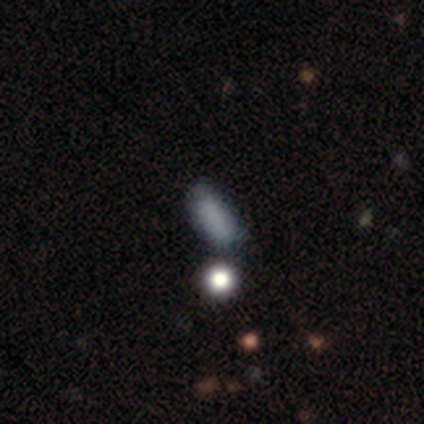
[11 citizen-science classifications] A smooth galaxy with no disk features (91%) that is in between round and cigar-shaped (80%). Merging: none (91%).